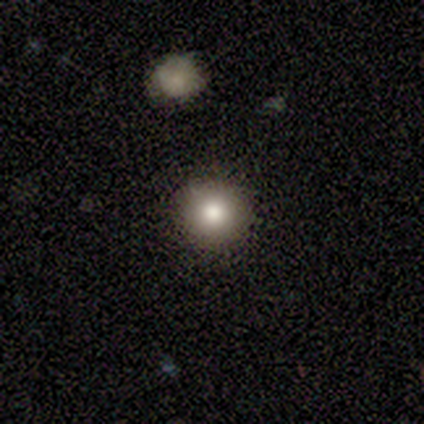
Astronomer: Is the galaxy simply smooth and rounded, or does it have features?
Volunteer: smooth — 80%.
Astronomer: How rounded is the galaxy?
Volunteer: round — 100%.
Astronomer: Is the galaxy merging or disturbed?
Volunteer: none — 100%.